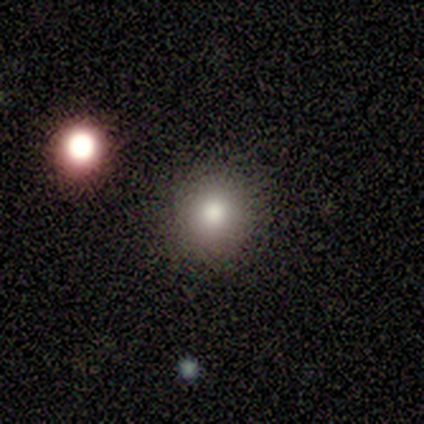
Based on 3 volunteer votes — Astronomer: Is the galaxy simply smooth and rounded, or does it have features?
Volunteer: smooth — 67%.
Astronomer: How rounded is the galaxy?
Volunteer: round — 50%, tied with in between at 50%.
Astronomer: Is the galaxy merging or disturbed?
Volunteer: none — 50%, tied with major disturbance at 50%.